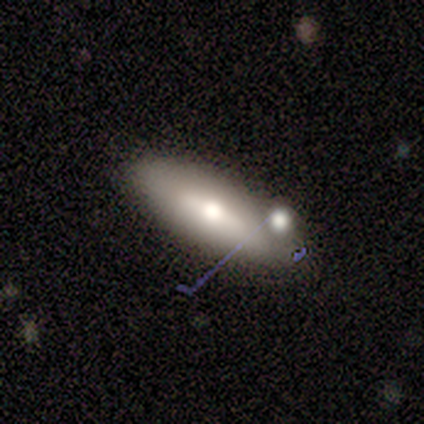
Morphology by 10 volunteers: A smooth galaxy with no disk features (60%) that is in between round and cigar-shaped (67%). Merging: none (60%).